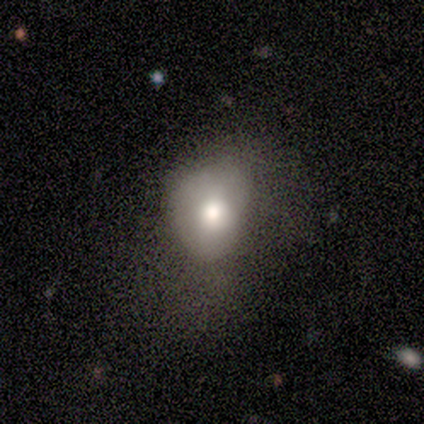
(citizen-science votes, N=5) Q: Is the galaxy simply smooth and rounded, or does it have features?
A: smooth — 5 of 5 (100%).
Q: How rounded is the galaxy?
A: in between — 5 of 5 (100%).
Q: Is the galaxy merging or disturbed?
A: minor disturbance — 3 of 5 (60%).